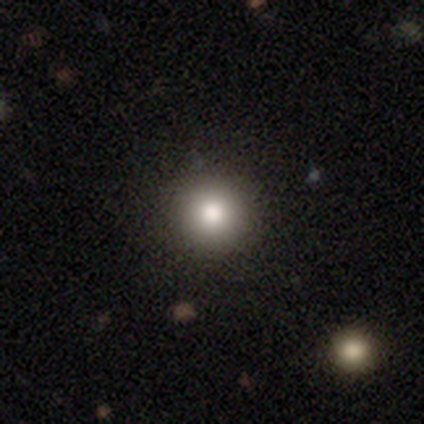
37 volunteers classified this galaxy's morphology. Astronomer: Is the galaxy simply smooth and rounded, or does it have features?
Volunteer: smooth — 95%.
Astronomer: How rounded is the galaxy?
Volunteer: round — 97%.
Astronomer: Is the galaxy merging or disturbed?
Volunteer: none — 95%.